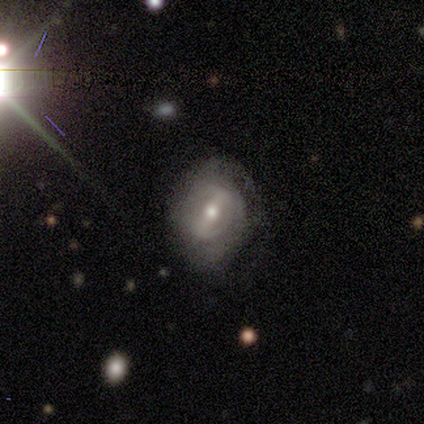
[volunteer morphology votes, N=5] This appears to be a featured or disk galaxy (100%) with a strong bar (60%), loose (50%) spiral arms (80%) and a moderate central bulge (80%). Merging: minor disturbance (60%).